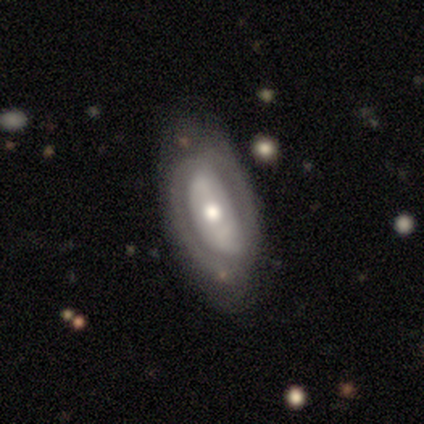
Smooth or featured? featured or disk (80%)
Edge-on disk? no (100%)
Bar? strong (75%)
Spiral arms? yes (75%)
Spiral winding? tight (67%)
Spiral arm count? 2 (100%)
Bulge size? moderate (100%)
Merging? none (80%)